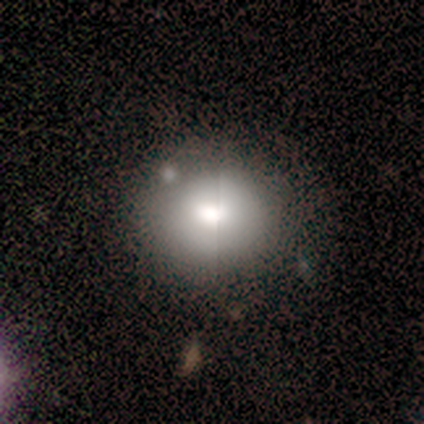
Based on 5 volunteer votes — smooth 80%, featured or disk 20%, star or artifact 0%. Down the decision tree: how rounded — round (50%, tied with in between); merging — none (80%).